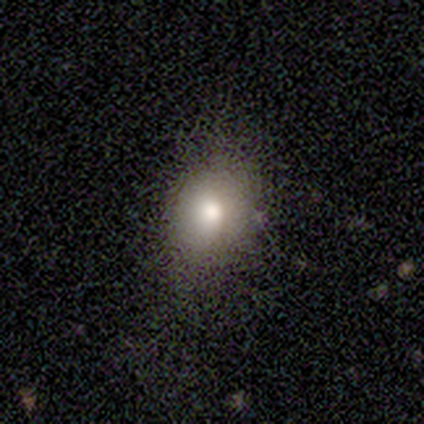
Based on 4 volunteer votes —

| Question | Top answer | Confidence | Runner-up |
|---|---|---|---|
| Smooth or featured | smooth | 50% | featured or disk (25%) |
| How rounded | in between | 100% | — |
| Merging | none | 100% | — |